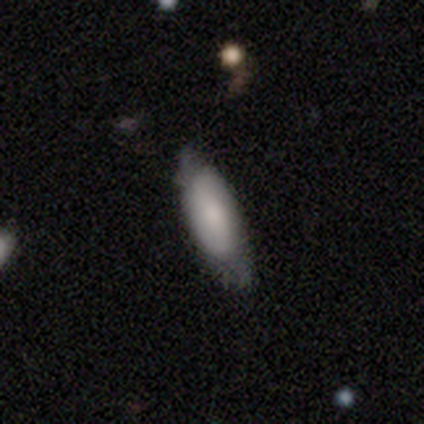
This appears to be a smooth galaxy with no disk features (66%) that is in between round and cigar-shaped (68%). Merging: none (64%).